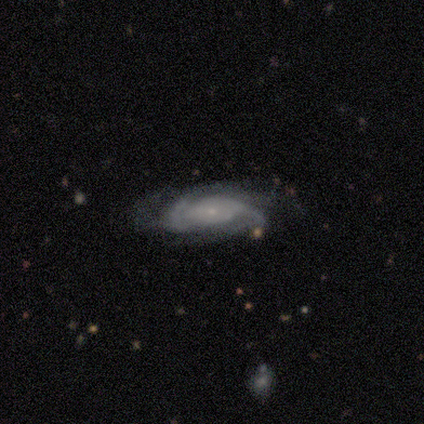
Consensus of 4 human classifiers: featured or disk 50% (tied), star or artifact 50% (tied), smooth 0%. Down the decision tree: edge-on disk — no (100%); bar — no (100%); spiral arms — yes (100%); spiral arm count — can't tell (100%); spiral winding — medium (100%); bulge size — small (100%); merging — none (50%, tied with minor disturbance).